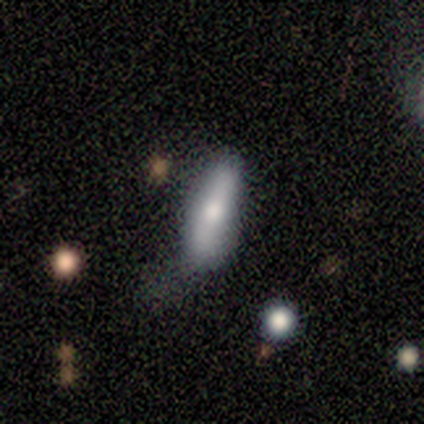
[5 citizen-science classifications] A smooth galaxy with no disk features (80%) that is in between round and cigar-shaped (75%).

Vote fractions:
- Smooth or featured? smooth: 80% / featured or disk: 20% / star or artifact: 0%
- How rounded? in between: 75% / cigar-shaped: 25% / round: 0%
- Merging? none: 60% / minor disturbance: 20% / major disturbance: 20% / merger: 0%